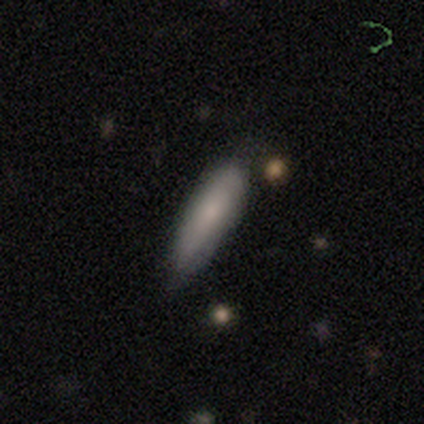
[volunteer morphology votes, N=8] Volunteers were most divided on "merging": none: 50%, minor disturbance: 38%, merger: 12%, major disturbance: 0%. More confident: smooth or featured — smooth (75%); how rounded — in between (67%).